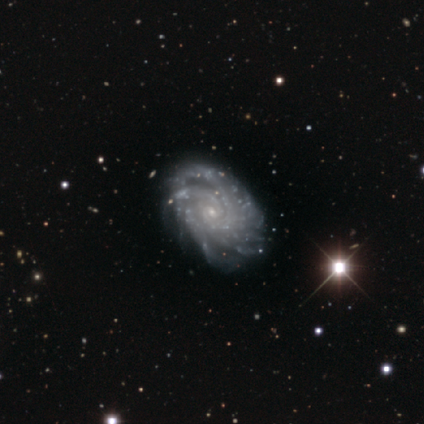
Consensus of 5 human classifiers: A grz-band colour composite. It shows a featured or disk galaxy (80%) with no bar (100%), more than 4 (67%) tight (100%) spiral arms (75%) and a small central bulge (100%). Merging: minor disturbance (50%).